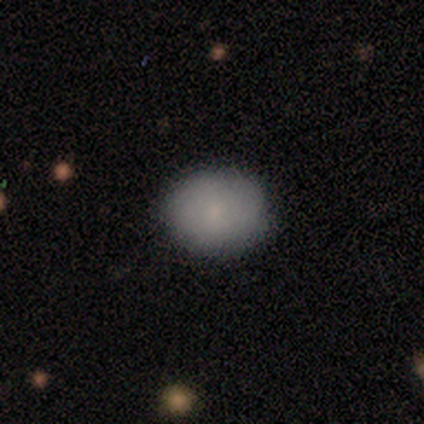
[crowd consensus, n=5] Smooth or featured: smooth — 60% (featured or disk — 20%)
How rounded: round — 67% (in between — 33%)
Merging: none — 100%